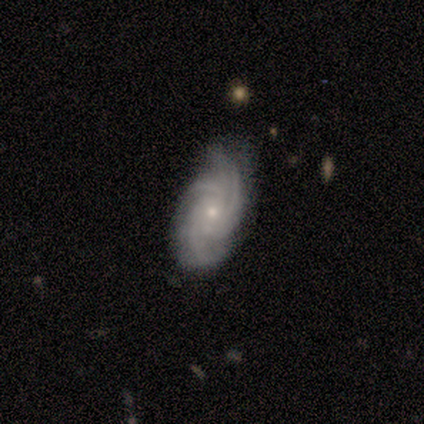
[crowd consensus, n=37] Smooth or featured? 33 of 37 (89%) said featured or disk. Edge-on disk? 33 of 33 (100%) said no. Bar? 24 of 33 (73%) said no. Spiral arms? 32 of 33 (97%) said yes. Spiral winding? 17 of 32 (53%) said tight. Spiral arm count? 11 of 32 (34%) said 3. Bulge size? 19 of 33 (58%) said small. Merging? 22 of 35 (63%) said none.